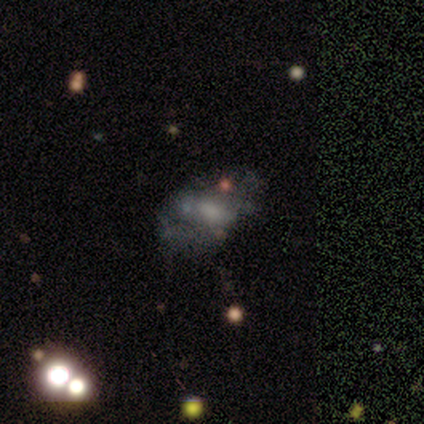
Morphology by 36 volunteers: smooth_or_featured: featured or disk (p=0.53) [alt: smooth p=0.25]
disk_edge_on: no (p=1.00)
bar: no (p=0.74) [alt: weak p=0.26]
has_spiral_arms: no (p=0.89) [alt: yes p=0.11]
bulge_size: moderate (p=0.42) [alt: none p=0.37]
merging: none (p=0.39) [alt: minor disturbance p=0.14]